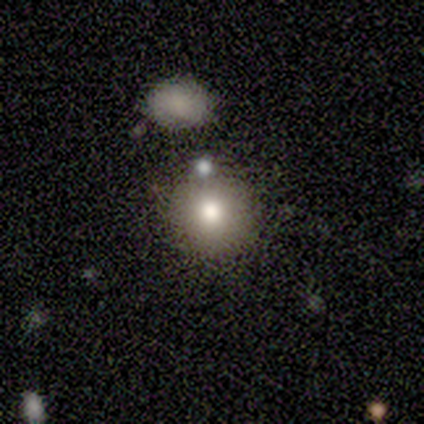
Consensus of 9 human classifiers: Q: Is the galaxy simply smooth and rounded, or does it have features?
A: smooth — 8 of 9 (89%).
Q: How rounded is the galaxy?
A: round — 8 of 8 (100%).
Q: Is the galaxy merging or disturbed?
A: none — 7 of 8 (88%).